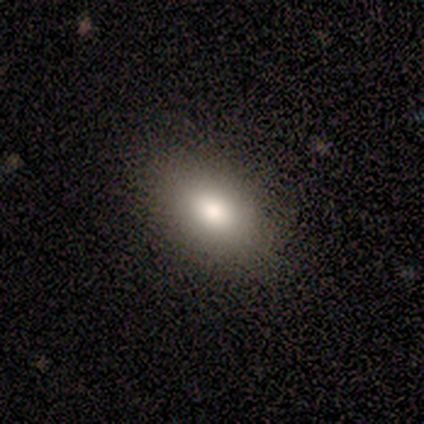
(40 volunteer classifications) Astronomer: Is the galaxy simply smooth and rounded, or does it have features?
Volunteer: smooth — 72%.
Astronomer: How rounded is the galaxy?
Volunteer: in between — 79%.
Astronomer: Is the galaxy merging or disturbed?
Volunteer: none — 77%.